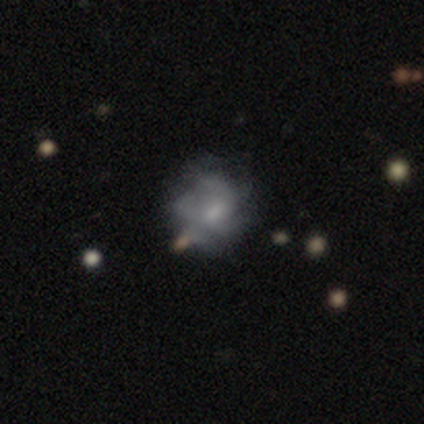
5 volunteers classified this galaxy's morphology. Overall: featured or disk (80%). Edge-on disk: no (100%). Bar: no (75%). Spiral arms: yes (75%). Spiral arm count: can't tell (67%; more than 4 33%). Spiral winding: tight (33%, tied with medium and loose). Bulge size: moderate (100%). Merging: minor disturbance (40%; none 20%).